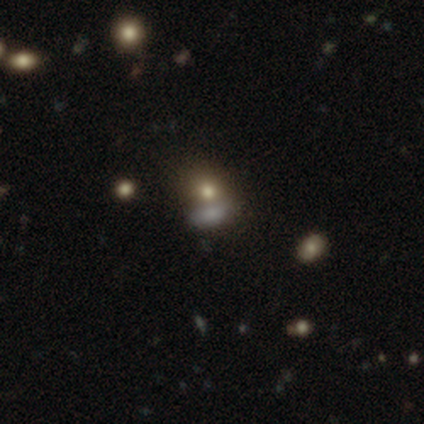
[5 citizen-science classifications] smooth_or_featured: smooth (p=0.60) [alt: star or artifact p=0.40]
how_rounded: round (p=0.67) [alt: in between p=0.33]
merging: none (p=0.67) [alt: merger p=0.33]